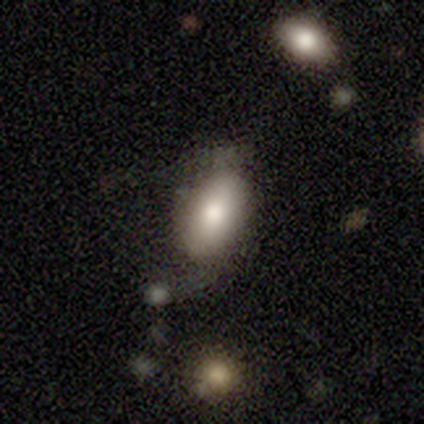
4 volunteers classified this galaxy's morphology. Q: Smooth or featured?
A: featured or disk (75%); runner-up: star or artifact (25%)
Q: Edge-on disk?
A: no (67%); runner-up: yes (33%)
Q: Bar?
A: no (100%)
Q: Spiral arms?
A: no (100%)
Q: Bulge size?
A: moderate (100%)
Q: Merging?
A: none (67%); runner-up: major disturbance (33%)